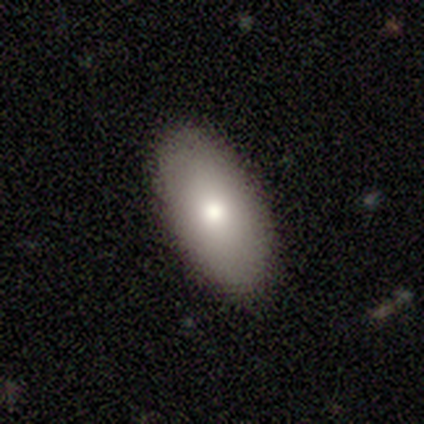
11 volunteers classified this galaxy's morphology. type=smooth (82%); roundness=in between (89%); merging=none (90%).